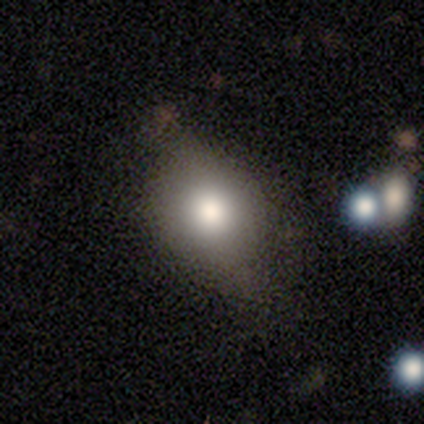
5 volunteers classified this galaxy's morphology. smooth 80%, featured or disk 20%, star or artifact 0%. Down the decision tree: how rounded — in between (75%); merging — none (60%).